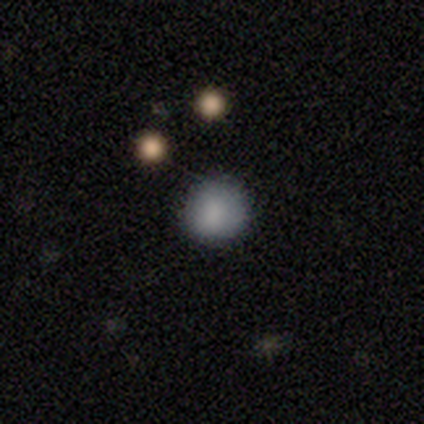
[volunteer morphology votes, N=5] Volunteers were most divided on "how rounded": round: 80%, in between: 20%, cigar-shaped: 0%. More confident: smooth or featured — smooth (100%); merging — none (80%).